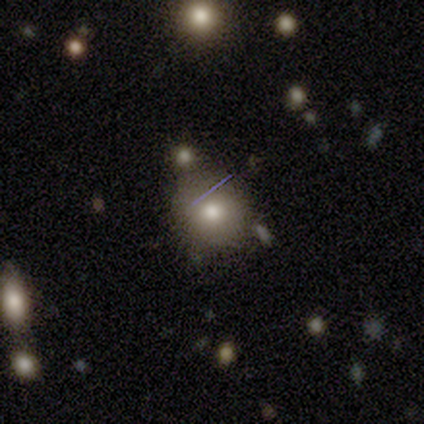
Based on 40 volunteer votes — Smooth or featured: smooth — 57% (featured or disk — 22%)
How rounded: round — 78% (in between — 22%)
Merging: none — 75% (major disturbance — 9%)